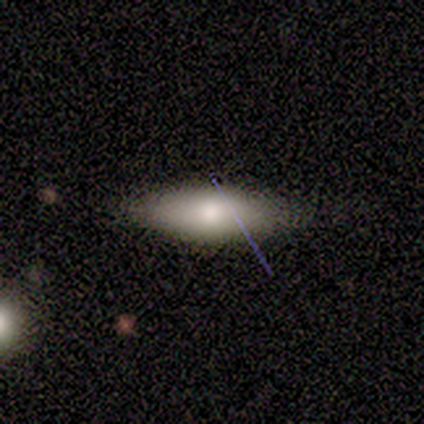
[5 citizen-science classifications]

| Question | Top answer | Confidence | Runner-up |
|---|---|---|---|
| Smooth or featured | smooth | 100% | — |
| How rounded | in between | 80% | cigar-shaped (20%) |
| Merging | none | 80% | minor disturbance (20%) |